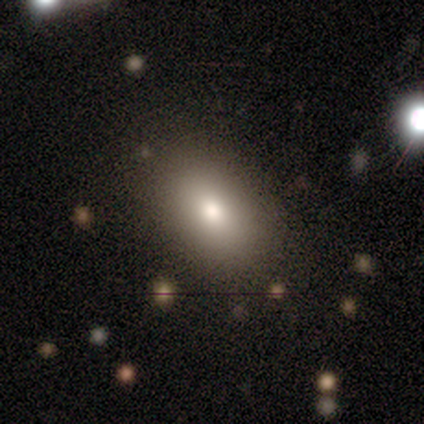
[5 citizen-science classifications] Smooth or featured? 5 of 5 (100%) said smooth. How rounded? 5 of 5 (100%) said in between. Merging? 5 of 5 (100%) said none.